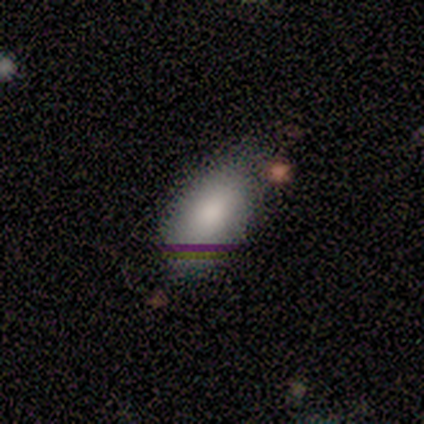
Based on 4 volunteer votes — Overall: smooth (100%). How rounded: in between (100%). Merging: minor disturbance (50%; none 25%).